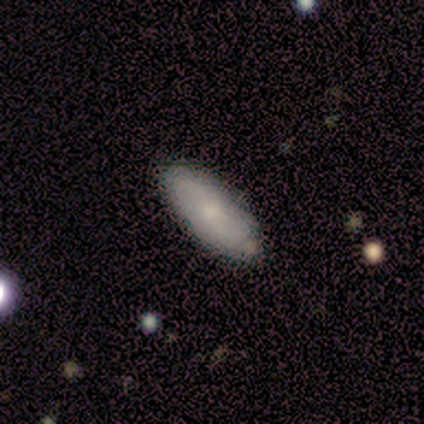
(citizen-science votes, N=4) Smooth or featured?
  - smooth: 50% * (tied)
  - featured or disk: 50% * (tied)
  - star or artifact: 0%
How rounded?
  - in between: 100% *
  - round: 0%
  - cigar-shaped: 0%
Merging?
  - none: 75% *
  - major disturbance: 25%
  - minor disturbance: 0%
  - merger: 0%